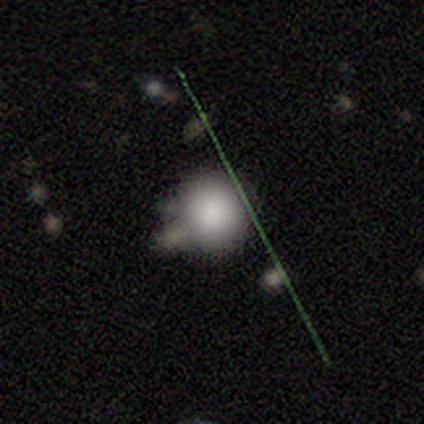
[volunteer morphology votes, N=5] Smooth or featured: smooth — 80% (star or artifact — 20%)
How rounded: round — 100%
Merging: none — 75% (merger — 25%)